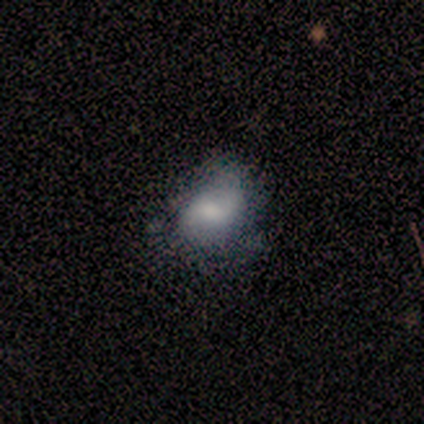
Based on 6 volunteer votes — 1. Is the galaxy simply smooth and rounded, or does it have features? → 50% smooth, 33% featured or disk, 17% star or artifact.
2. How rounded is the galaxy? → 67% in between, 33% round, 0% cigar-shaped.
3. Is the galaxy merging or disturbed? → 40% minor disturbance (tied), 40% major disturbance (tied), 20% none, 0% merger.